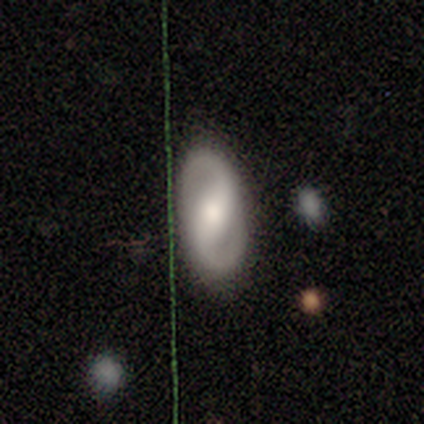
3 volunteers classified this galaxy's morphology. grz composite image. It shows a featured or disk galaxy (67%) with a weak bar (50%, tied with no), 2 (100%) tight (50%, tied with loose) spiral arms (100%) and a moderate central bulge (50%, tied with small). Merging: none (67%).